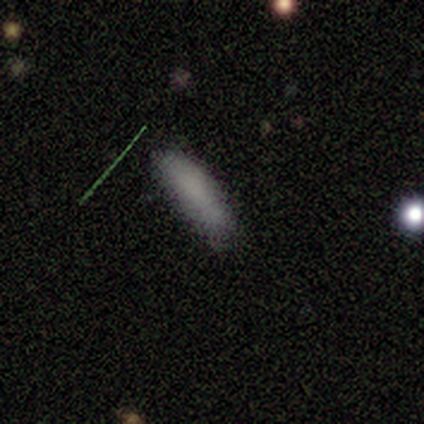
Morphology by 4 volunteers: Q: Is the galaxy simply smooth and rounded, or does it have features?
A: smooth — 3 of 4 (75%).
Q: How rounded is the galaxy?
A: in between — 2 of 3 (67%).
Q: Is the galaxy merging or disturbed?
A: none — 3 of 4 (75%).